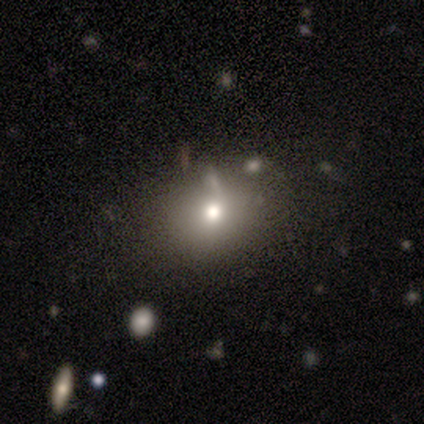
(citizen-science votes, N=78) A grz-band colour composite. It shows a smooth galaxy with no disk features (83%) that is round (55%). Merging: none (33%).